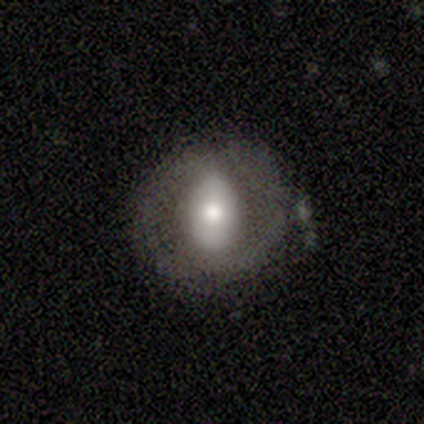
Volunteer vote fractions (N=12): smooth 50%, featured or disk 42%, star or artifact 8%. Down the decision tree: how rounded — round (83%); merging — none (64%).